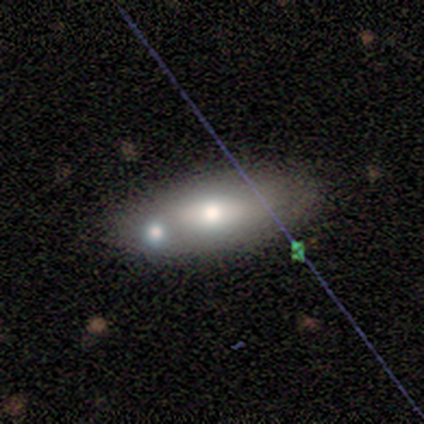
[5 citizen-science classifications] smooth-or-featured: featured or disk: 60% | smooth: 20% | star or artifact: 20%
  disk-edge-on: no: 67% | yes: 33%
    bar: weak: 50% (tied) | no: 50% (tied) | strong: 0%
    has-spiral-arms: yes: 50% (tied) | no: 50% (tied)
      spiral-winding: loose: 100% | tight: 0% | medium: 0%
      spiral-arm-count: can't tell: 100% | 1: 0% | 2: 0% | 3: 0% | 4: 0% | more than 4: 0%
    bulge-size: moderate: 50% (tied) | small: 50% (tied) | dominant: 0% | large: 0% | none: 0%
  merging: none: 50% (tied) | merger: 50% (tied) | minor disturbance: 0% | major disturbance: 0%